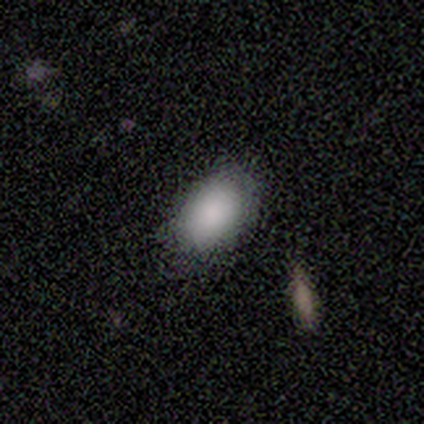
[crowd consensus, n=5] Smooth or featured: smooth — 100%
How rounded: in between — 100%
Merging: none — 80% (minor disturbance — 20%)